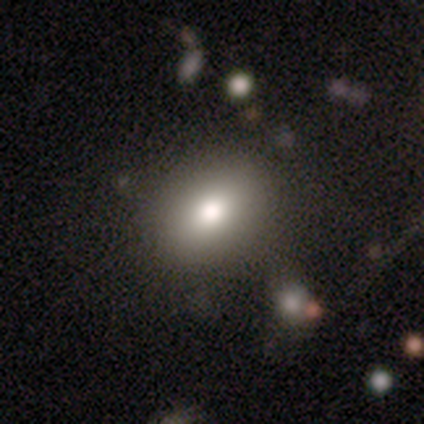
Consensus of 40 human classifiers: Morphology: type=smooth (88%); roundness=in between (54%); merging=none (70%).